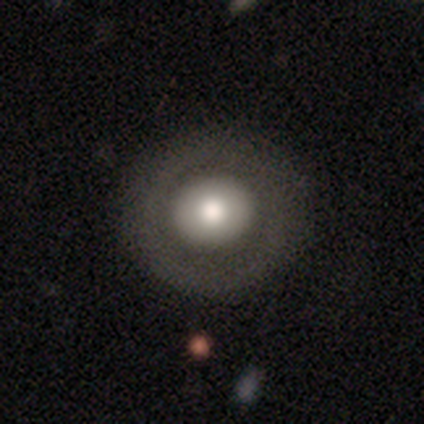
This appears to be a featured or disk galaxy (60%) with no bar (100%), no spiral arms (100%) and a moderate central bulge (67%). Merging: none (100%).